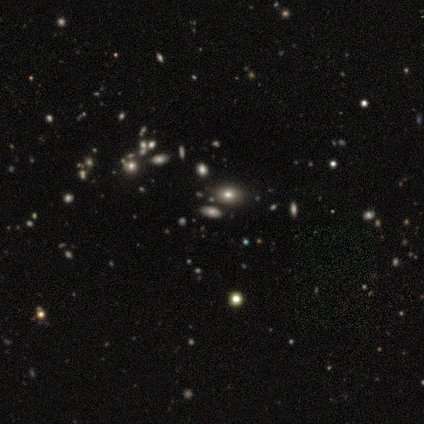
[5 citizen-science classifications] smooth_or_featured: smooth (p=0.80) [alt: featured or disk p=0.20]
how_rounded: in between (p=0.75) [alt: round p=0.25]
merging: none (p=0.80) [alt: minor disturbance p=0.20]